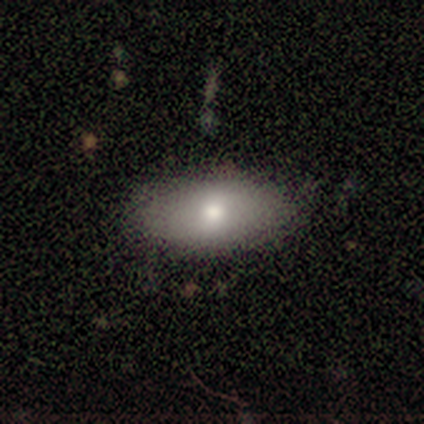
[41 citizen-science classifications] smooth 78%, featured or disk 12%, star or artifact 10%. Down the decision tree: how rounded — in between (91%); merging — none (78%).